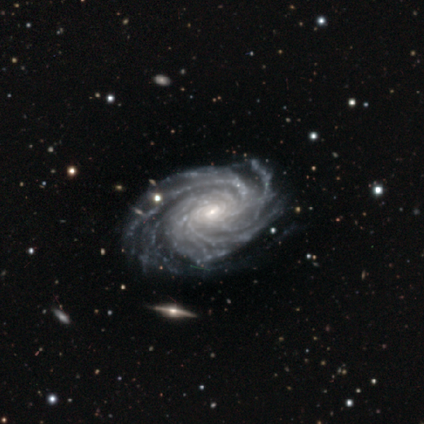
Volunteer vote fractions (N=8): Morphology: type=featured or disk (100%); edge-on=no (100%); bar=weak (50%, tied with no); spiral arms=yes (100%); winding=tight (88%); arm count=more than 4 (50%); bulge=small (100%); merging=none (100%).